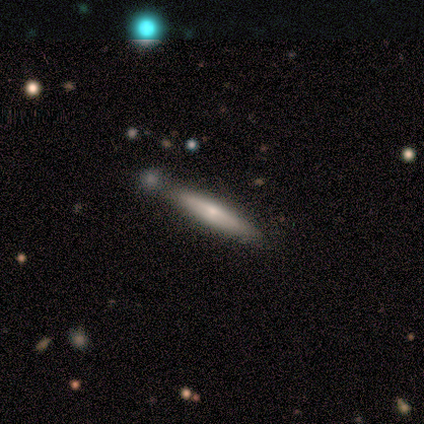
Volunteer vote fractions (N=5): A featured or disk galaxy (60%) viewed edge-on (100%) with no central bulge (67%).

Vote fractions:
- Smooth or featured? featured or disk: 60% / smooth: 40% / star or artifact: 0%
- Edge-on disk? yes: 100% / no: 0%
- Edge-on bulge? none: 67% / rounded: 33% / boxy: 0%
- Merging? none: 80% / minor disturbance: 20% / major disturbance: 0% / merger: 0%